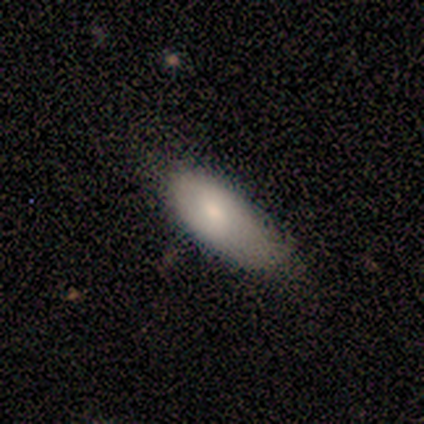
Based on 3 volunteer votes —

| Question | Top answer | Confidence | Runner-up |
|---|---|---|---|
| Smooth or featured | smooth | 67% | star or artifact (33%) |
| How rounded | in between | 50% | tied: cigar-shaped (50%) |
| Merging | none | 50% | tied: minor disturbance (50%) |